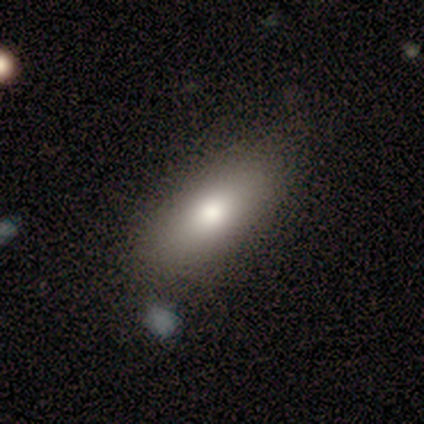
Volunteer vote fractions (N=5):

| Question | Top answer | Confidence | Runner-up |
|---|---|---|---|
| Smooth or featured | smooth | 100% | — |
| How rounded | in between | 80% | round (20%) |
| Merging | none | 60% | minor disturbance (40%) |